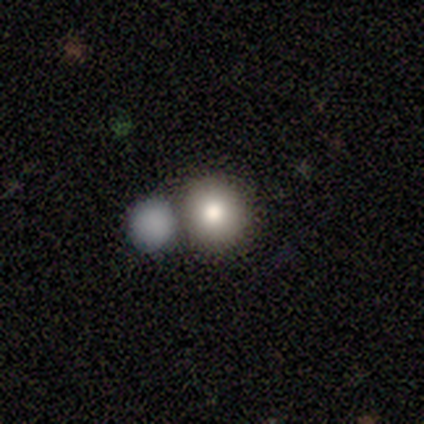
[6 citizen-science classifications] A smooth galaxy with no disk features (83%) that is round (100%). Merging: none (83%).